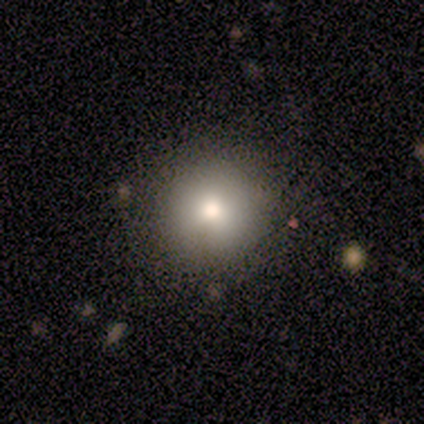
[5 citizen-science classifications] A smooth galaxy with no disk features (100%) that is round (80%). Merging: none (80%).